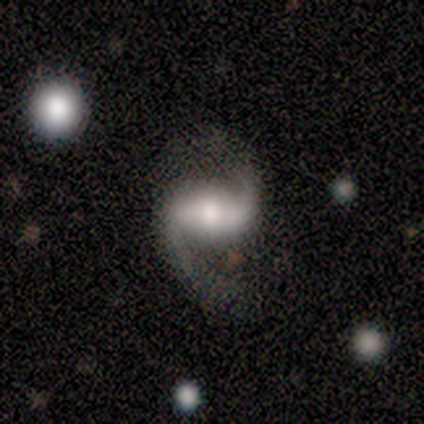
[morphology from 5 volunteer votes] Smooth or featured? 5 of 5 (100%) said featured or disk. Edge-on disk? 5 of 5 (100%) said no. Bar? 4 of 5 (80%) said strong. Spiral arms? 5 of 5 (100%) said yes. Spiral winding? 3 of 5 (60%) said medium. Spiral arm count? 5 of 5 (100%) said 2. Bulge size? 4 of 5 (80%) said moderate. Merging? 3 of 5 (60%) said none.